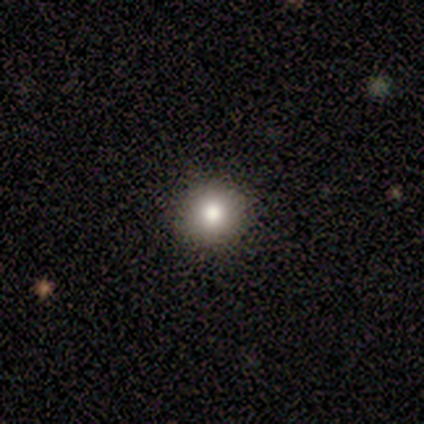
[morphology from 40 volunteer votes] This is clearly a smooth galaxy (80%). How rounded: clearly round (100%). Merging: clearly none (91%).